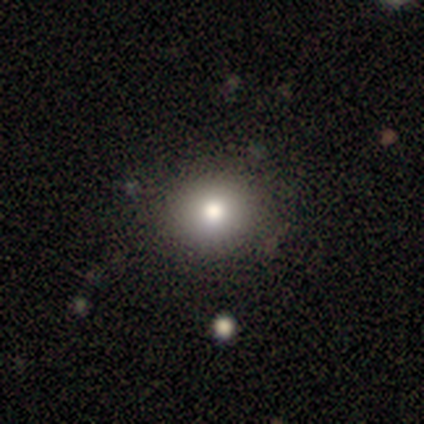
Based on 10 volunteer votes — A smooth galaxy with no disk features (70%) that is round (86%).

Vote fractions:
- Smooth or featured? smooth: 70% / featured or disk: 20% / star or artifact: 10%
- How rounded? round: 86% / in between: 14% / cigar-shaped: 0%
- Merging? none: 89% / minor disturbance: 11% / major disturbance: 0% / merger: 0%